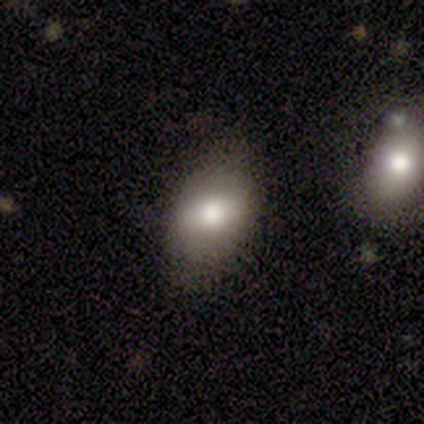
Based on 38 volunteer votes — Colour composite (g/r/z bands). It shows a smooth galaxy with no disk features (68%) that is in between round and cigar-shaped (73%). Merging: none (68%).